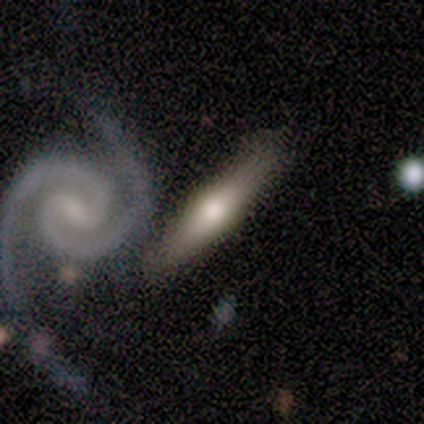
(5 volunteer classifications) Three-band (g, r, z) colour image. It shows a smooth galaxy with no disk features (60%) that is cigar-shaped (100%). Merging: none (80%).